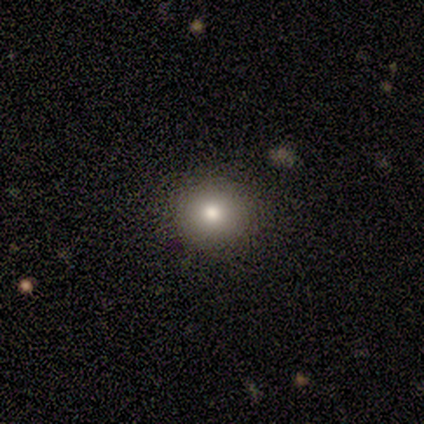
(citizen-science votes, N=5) smooth_or_featured: smooth (p=0.60) [alt: featured or disk p=0.40]
how_rounded: round (p=1.00)
merging: none (p=1.00)